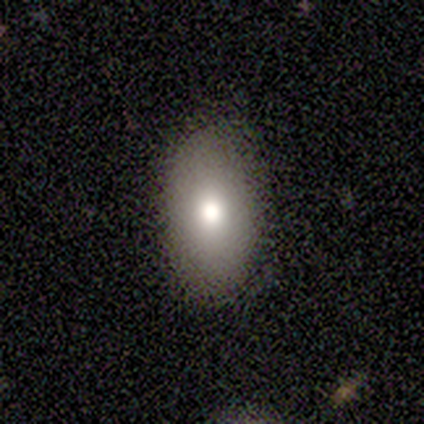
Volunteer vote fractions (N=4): Smooth or featured? 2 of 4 (50%) said smooth. How rounded? 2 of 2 (100%) said in between. Merging? 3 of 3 (100%) said none.